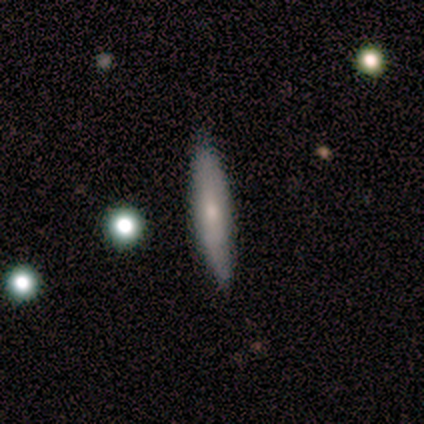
Overall: featured or disk (60%; smooth 40%). Edge-on disk: yes (67%; no 33%). Edge-on bulge: none (50%, tied with rounded). Merging: none (80%).